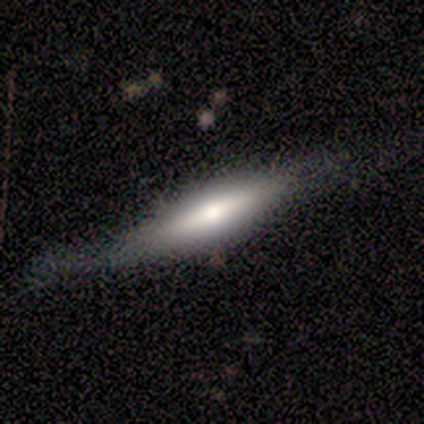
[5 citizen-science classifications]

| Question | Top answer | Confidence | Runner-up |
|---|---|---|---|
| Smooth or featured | smooth | 60% | featured or disk (20%) |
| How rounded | cigar-shaped | 100% | — |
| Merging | none | 100% | — |